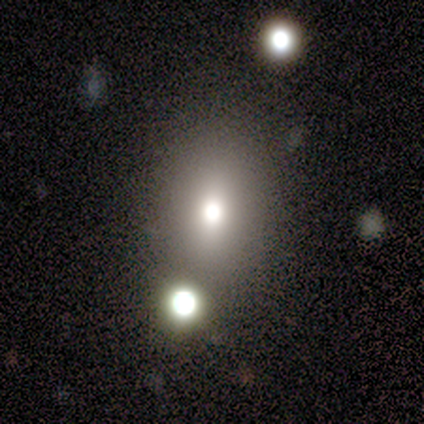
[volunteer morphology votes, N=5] type=smooth (60%); roundness=in between (67%); merging=none (100%).